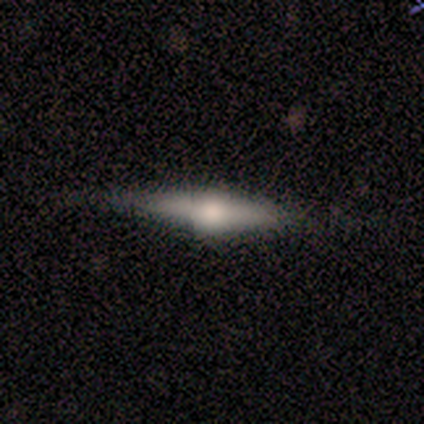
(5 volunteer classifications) Morphology: type=featured or disk (80%); edge-on=yes (100%); edge-on bulge=rounded (100%); merging=none (100%).